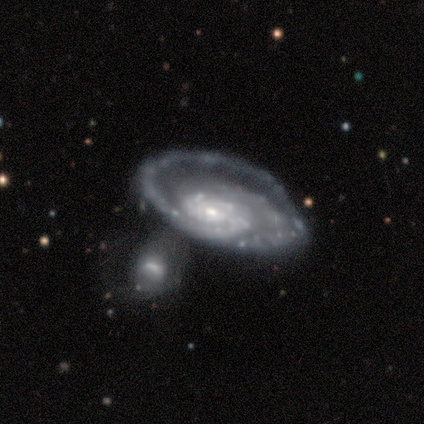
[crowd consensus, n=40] This is clearly a featured or disk galaxy (88%). It is clearly not viewed edge-on (97%). Bar: likely no (65%). Spiral arm pattern: clearly yes (100%). Spiral arm count: likely 2 (71%). Spiral winding: likely tight (68%). Central bulge: likely small (76%). Merging: marginally merger (28%).